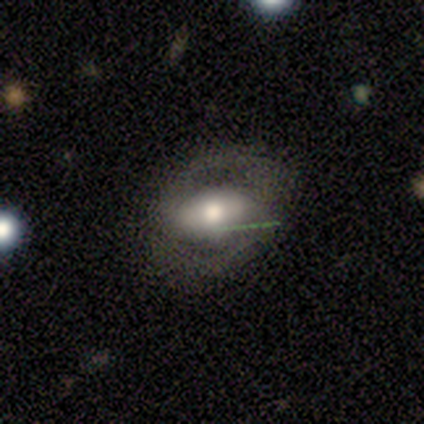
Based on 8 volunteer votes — smooth_or_featured: smooth (p=0.50) [tied with: featured or disk p=0.50]
how_rounded: in between (p=1.00)
merging: none (p=0.62) [alt: minor disturbance p=0.25]